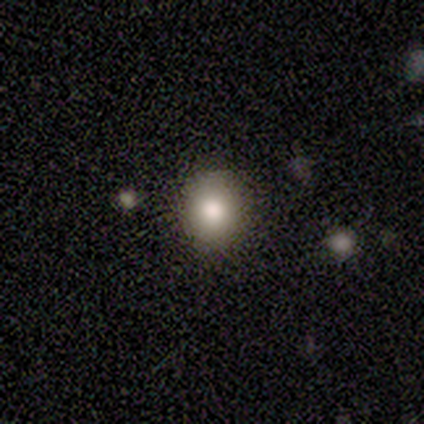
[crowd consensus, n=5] Smooth or featured?
  - smooth: 80% *
  - star or artifact: 20%
  - featured or disk: 0%
How rounded?
  - round: 100% *
  - in between: 0%
  - cigar-shaped: 0%
Merging?
  - none: 100% *
  - minor disturbance: 0%
  - major disturbance: 0%
  - merger: 0%